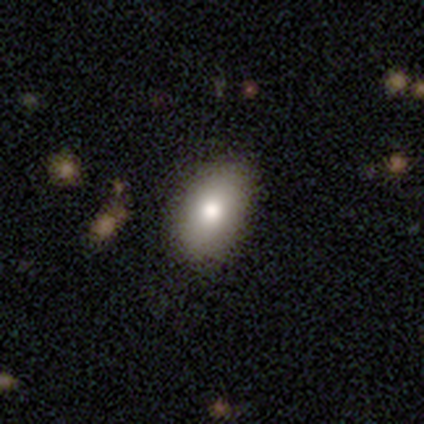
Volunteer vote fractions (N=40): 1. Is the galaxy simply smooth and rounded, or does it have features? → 82% smooth, 15% featured or disk, 2% star or artifact.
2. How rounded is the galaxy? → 88% in between, 9% round, 3% cigar-shaped.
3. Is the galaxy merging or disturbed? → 54% none, 8% minor disturbance, 0% major disturbance, 0% merger.